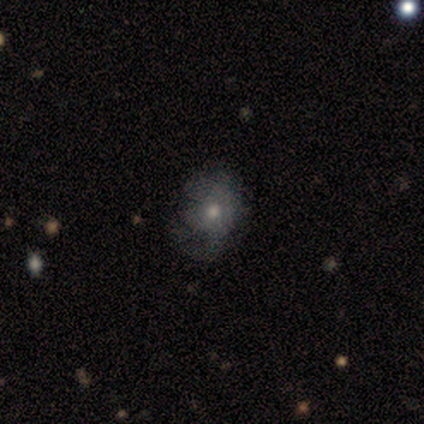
Smooth or featured? 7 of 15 (47%) said smooth. How rounded? 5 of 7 (71%) said round. Merging? 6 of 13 (46%) said none.